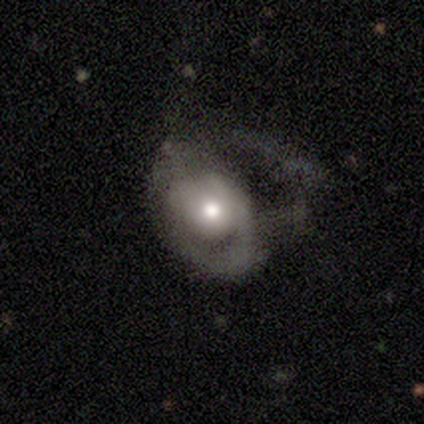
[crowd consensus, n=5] A smooth galaxy with no disk features (60%) that is round (67%).

Vote fractions:
- Smooth or featured? smooth: 60% / featured or disk: 40% / star or artifact: 0%
- How rounded? round: 67% / in between: 33% / cigar-shaped: 0%
- Merging? major disturbance: 100% / none: 0% / minor disturbance: 0% / merger: 0%